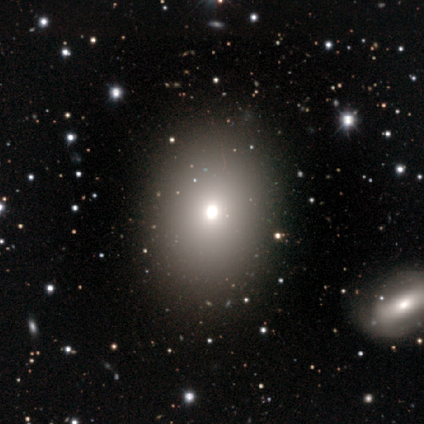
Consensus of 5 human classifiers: Overall: smooth (60%; featured or disk 20%). How rounded: round (67%; in between 33%). Merging: none (75%).